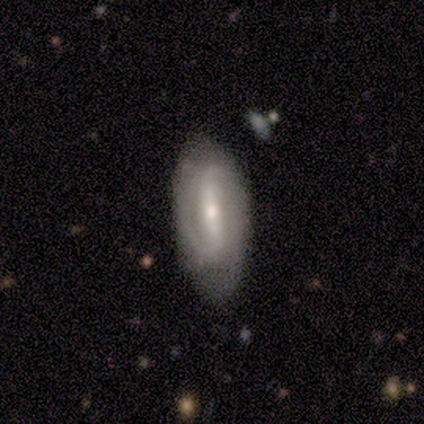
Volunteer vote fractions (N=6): This appears to be a featured or disk galaxy (83%) with a strong bar (80%), 2 (100%) medium (80%) spiral arms (100%) and a moderate central bulge (40%, tied with small). Merging: none (83%).